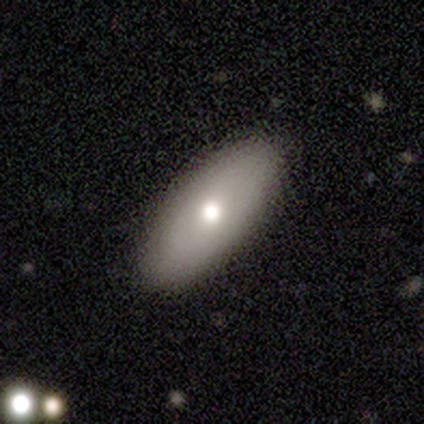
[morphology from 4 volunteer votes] smooth-or-featured: smooth: 100% | featured or disk: 0% | star or artifact: 0%
  how-rounded: in between: 100% | round: 0% | cigar-shaped: 0%
  merging: none: 100% | minor disturbance: 0% | major disturbance: 0% | merger: 0%